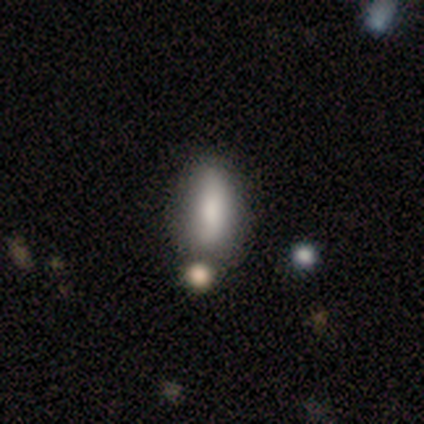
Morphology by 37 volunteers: type=smooth (86%); roundness=in between (75%); merging=none (71%).